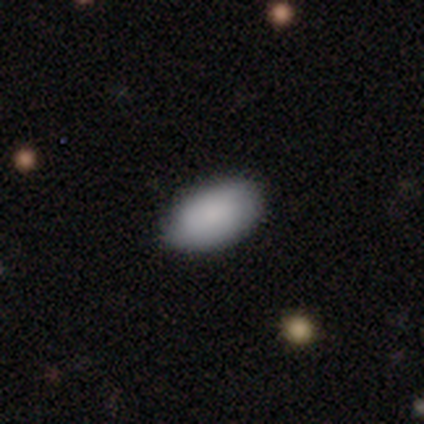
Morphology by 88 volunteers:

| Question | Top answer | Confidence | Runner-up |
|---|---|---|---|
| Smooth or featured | smooth | 83% | featured or disk (15%) |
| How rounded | in between | 92% | round (7%) |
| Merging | none | 86% | minor disturbance (10%) |